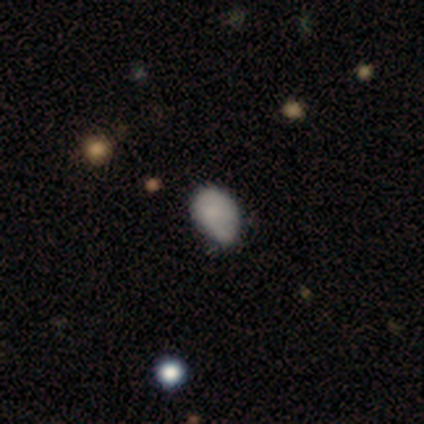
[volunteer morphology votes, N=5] Volunteers were most divided on "how rounded" (2-way tie): round: 50%, in between: 50%, cigar-shaped: 0%. More confident: smooth or featured — smooth (80%); merging — none (60%).